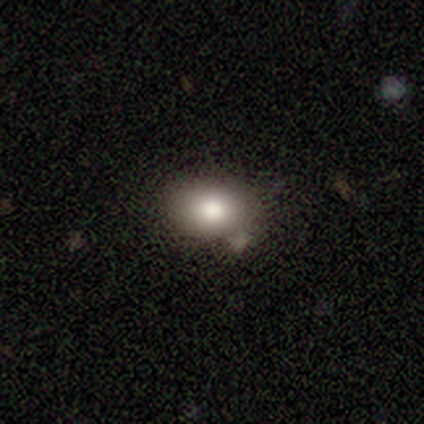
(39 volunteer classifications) Smooth or featured? 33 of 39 (85%) said smooth. How rounded? 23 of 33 (70%) said in between. Merging? 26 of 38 (68%) said none.